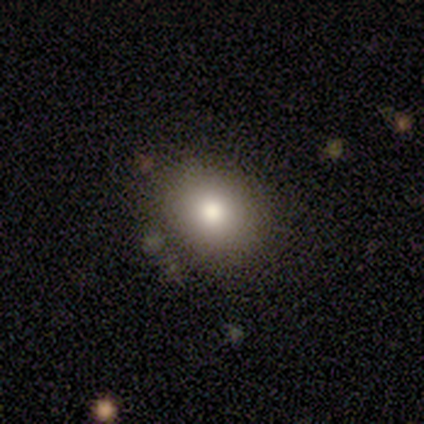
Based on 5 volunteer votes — Morphology: type=smooth (80%); roundness=round (50%, tied with in between); merging=none (75%).